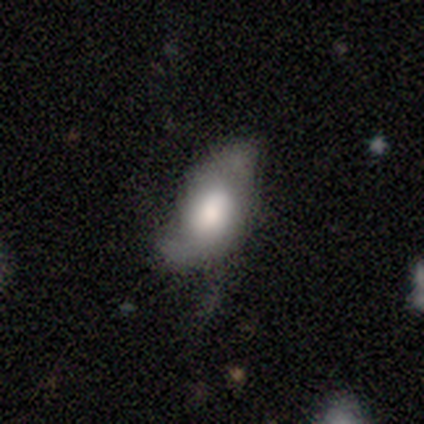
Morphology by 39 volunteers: Q: Smooth or featured?
A: smooth (49%); tied with: featured or disk (49%)
Q: How rounded?
A: in between (95%); runner-up: round (5%)
Q: Merging?
A: none (34%); tied with: major disturbance (34%)